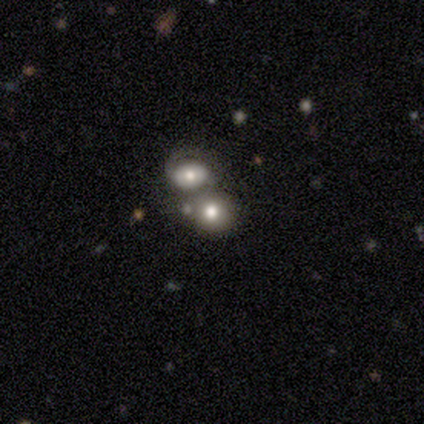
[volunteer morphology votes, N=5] smooth-or-featured: smooth: 40% (tied) | featured or disk: 40% (tied) | star or artifact: 20%
  how-rounded: round: 100% | in between: 0% | cigar-shaped: 0%
  merging: merger: 75% | none: 25% | minor disturbance: 0% | major disturbance: 0%